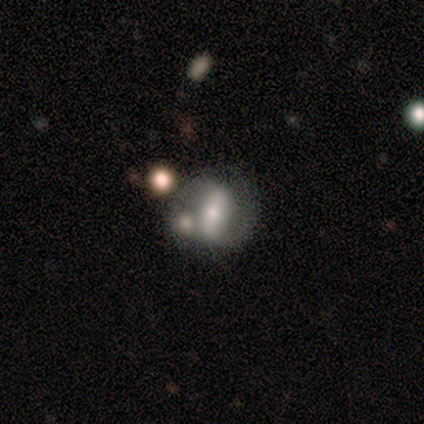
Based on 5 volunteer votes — Smooth or featured? featured or disk (100%)
Edge-on disk? no (80%)
Bar? strong (50%)
Spiral arms? yes (75%)
Spiral winding? medium (67%)
Spiral arm count? 2 (100%)
Bulge size? moderate (75%)
Merging? none (60%)